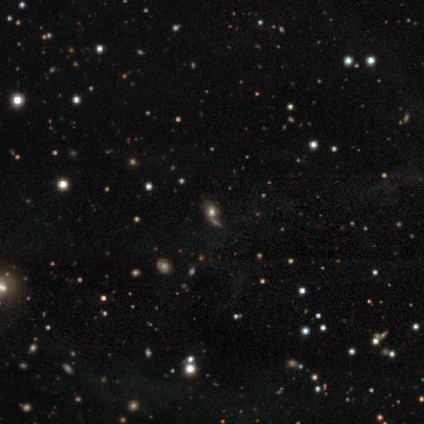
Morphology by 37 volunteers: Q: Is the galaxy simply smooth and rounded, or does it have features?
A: star or artifact — 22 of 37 (59%).